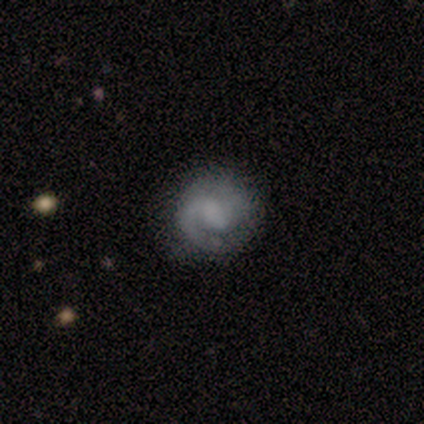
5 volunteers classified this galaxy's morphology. Volunteers were most divided on "bar" (2-way tie): weak: 50%, no: 50%, strong: 0%; "spiral winding" (2-way tie): tight: 50%, medium: 50%, loose: 0%; "spiral arm count" (2-way tie): 1: 50%, 2: 50%, 3: 0%, 4: 0%, more than 4: 0%, can't tell: 0%; "bulge size" (4-way tie): large: 25%, moderate: 25%, small: 25%, none: 25%, dominant: 0%. More confident: edge-on disk — no (100%); spiral arms — yes (100%); smooth or featured — featured or disk (80%); merging — none (60%).